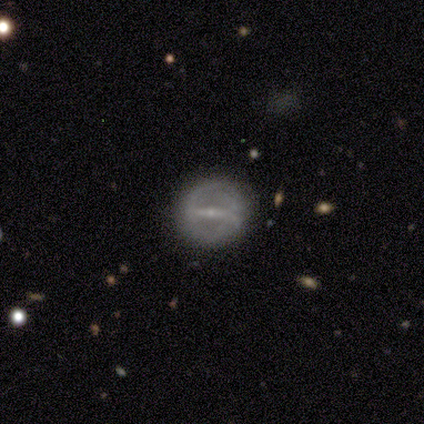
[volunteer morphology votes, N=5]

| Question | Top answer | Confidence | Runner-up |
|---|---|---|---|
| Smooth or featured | featured or disk | 60% | smooth (40%) |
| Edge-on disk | no | 100% | — |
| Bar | strong | 67% | weak (33%) |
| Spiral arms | no | 67% | yes (33%) |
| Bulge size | small | 100% | — |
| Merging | none | 100% | — |